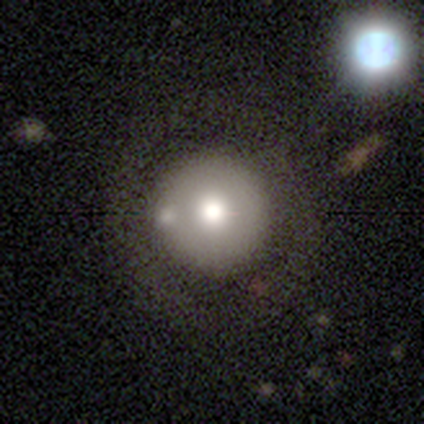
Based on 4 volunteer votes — This is clearly a smooth galaxy (100%). How rounded: clearly round (100%). Merging: likely none (75%).